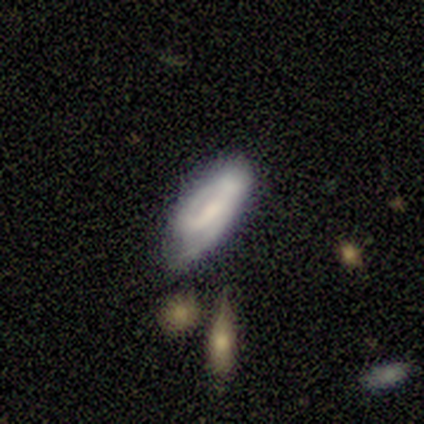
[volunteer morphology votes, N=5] A smooth galaxy with no disk features (60%) that is in between round and cigar-shaped (67%).

Vote fractions:
- Smooth or featured? smooth: 60% / featured or disk: 40% / star or artifact: 0%
- How rounded? in between: 67% / cigar-shaped: 33% / round: 0%
- Merging? none: 80% / minor disturbance: 20% / major disturbance: 0% / merger: 0%